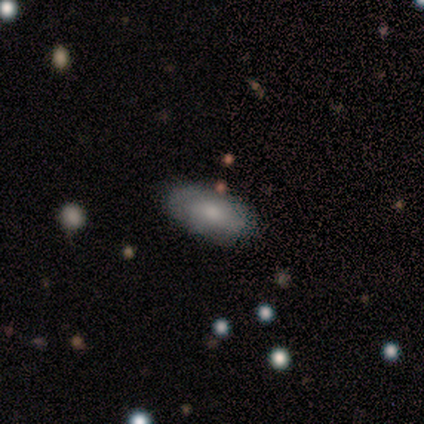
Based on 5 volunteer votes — smooth-or-featured: smooth: 60% | featured or disk: 20% | star or artifact: 20%
  how-rounded: in between: 100% | round: 0% | cigar-shaped: 0%
  merging: none: 75% | minor disturbance: 25% | major disturbance: 0% | merger: 0%